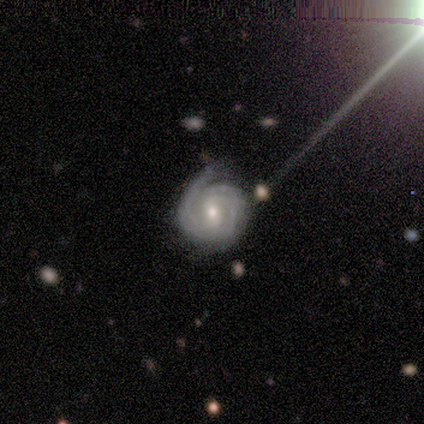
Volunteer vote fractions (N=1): Overall: star or artifact (100%).